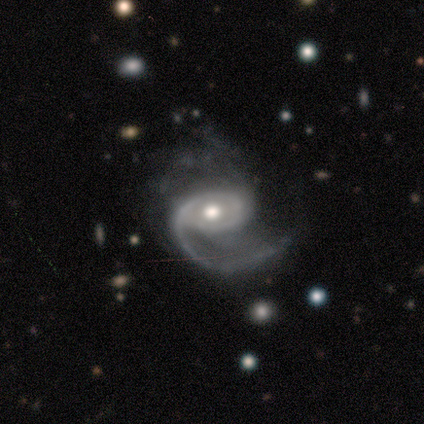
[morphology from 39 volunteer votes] Smooth or featured: featured or disk — 97% (star or artifact — 3%)
Edge-on disk: no — 97% (yes — 3%)
Bar: no — 76% (weak — 16%)
Spiral arms: yes — 95% (no — 5%)
Spiral winding: medium — 54% (loose — 37%)
Spiral arm count: 1 — 83% (2 — 11%)
Bulge size: moderate — 76% (small — 14%)
Merging: none — 55% (major disturbance — 24%)